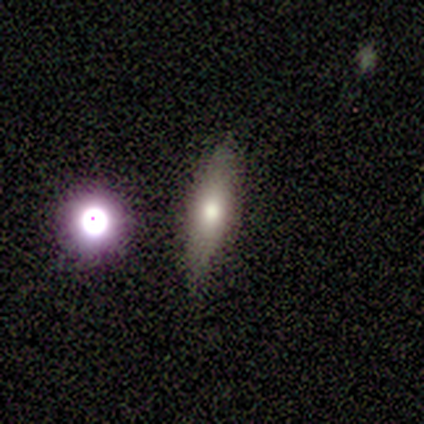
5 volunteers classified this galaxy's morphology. This appears to be a smooth galaxy with no disk features (100%) that is in between round and cigar-shaped (40%, tied with cigar-shaped). Merging: none (100%).